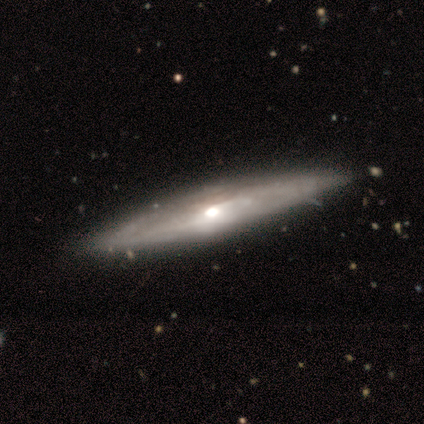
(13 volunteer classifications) Morphology: type=featured or disk (69%); edge-on=yes (89%); edge-on bulge=rounded (88%); merging=none (91%).